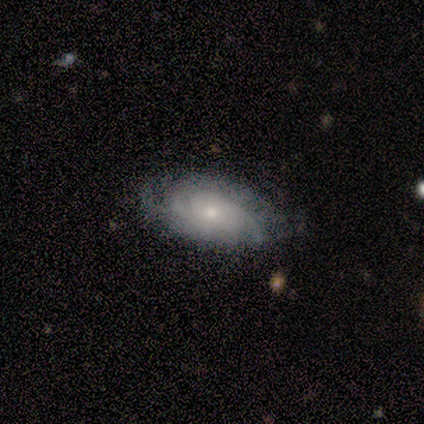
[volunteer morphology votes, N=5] smooth-or-featured: featured or disk: 80% | smooth: 20% | star or artifact: 0%
  disk-edge-on: no: 100% | yes: 0%
    bar: no: 75% | weak: 25% | strong: 0%
    has-spiral-arms: yes: 100% | no: 0%
      spiral-winding: tight: 75% | medium: 25% | loose: 0%
      spiral-arm-count: can't tell: 50% | 2: 25% | 3: 25% | 1: 0% | 4: 0% | more than 4: 0%
    bulge-size: small: 75% | moderate: 25% | dominant: 0% | large: 0% | none: 0%
  merging: none: 80% | major disturbance: 20% | minor disturbance: 0% | merger: 0%